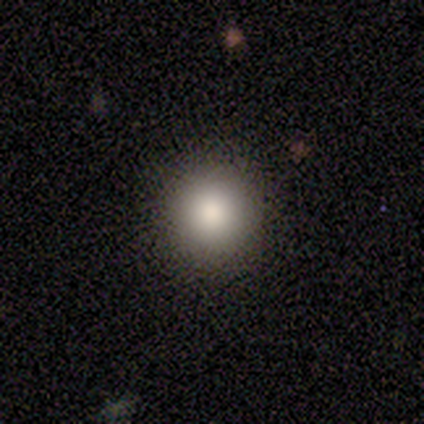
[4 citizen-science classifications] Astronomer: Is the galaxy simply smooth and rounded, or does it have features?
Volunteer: smooth — 50%, tied with star or artifact at 50%.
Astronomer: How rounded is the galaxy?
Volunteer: round — 100%.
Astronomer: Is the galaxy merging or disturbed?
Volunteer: none — 100%.